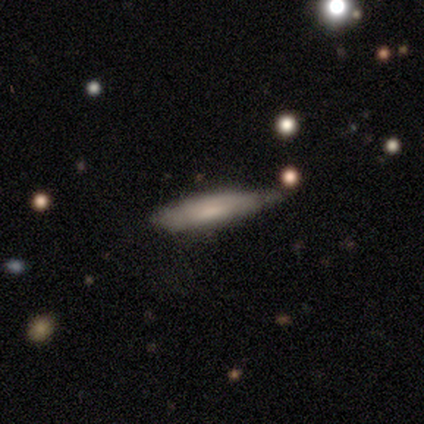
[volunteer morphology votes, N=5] smooth 60%, featured or disk 40%, star or artifact 0%. Down the decision tree: how rounded — cigar-shaped (100%); merging — none (40%, tied with minor disturbance).